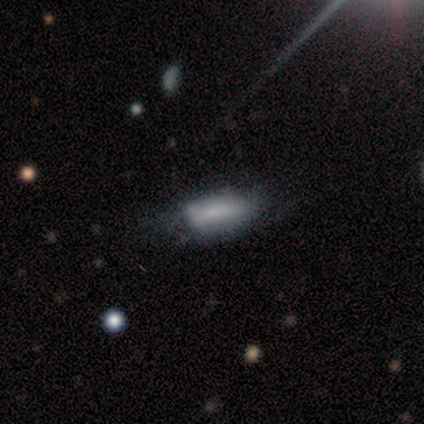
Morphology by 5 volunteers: This is marginally a smooth galaxy (40%, tied with featured or disk). How rounded: clearly cigar-shaped (100%). Merging: possibly none (50%).